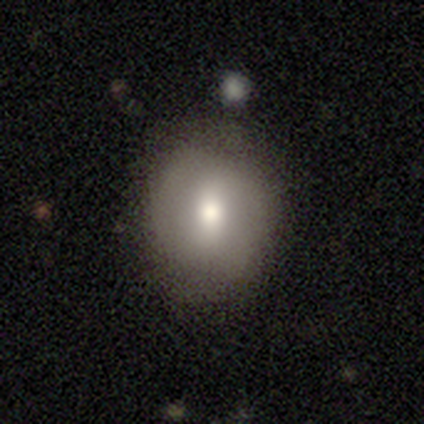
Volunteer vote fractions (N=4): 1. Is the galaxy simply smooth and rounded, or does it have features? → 75% smooth, 25% star or artifact, 0% featured or disk.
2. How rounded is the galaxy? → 67% round, 33% in between, 0% cigar-shaped.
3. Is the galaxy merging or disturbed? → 100% none, 0% minor disturbance, 0% major disturbance, 0% merger.